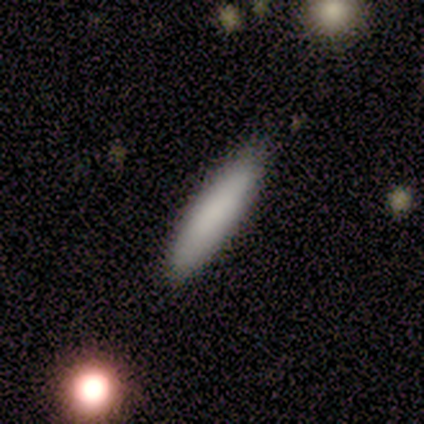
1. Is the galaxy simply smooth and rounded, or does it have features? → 100% smooth, 0% featured or disk, 0% star or artifact.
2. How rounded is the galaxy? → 60% cigar-shaped, 40% in between, 0% round.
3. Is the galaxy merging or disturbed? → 100% none, 0% minor disturbance, 0% major disturbance, 0% merger.